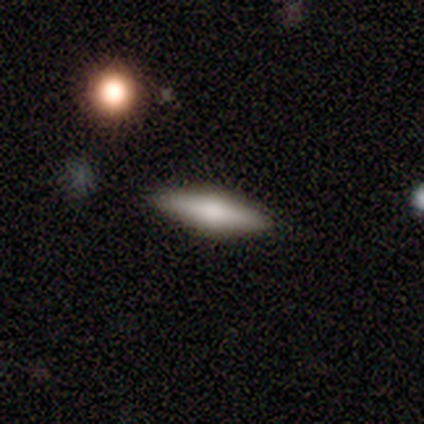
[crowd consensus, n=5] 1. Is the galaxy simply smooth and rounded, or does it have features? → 60% smooth, 40% featured or disk, 0% star or artifact.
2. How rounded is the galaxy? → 67% cigar-shaped, 33% in between, 0% round.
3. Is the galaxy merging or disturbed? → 100% none, 0% minor disturbance, 0% major disturbance, 0% merger.